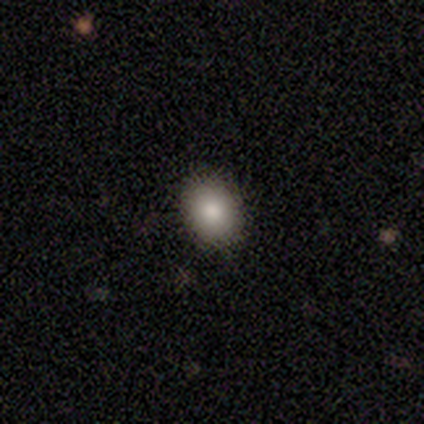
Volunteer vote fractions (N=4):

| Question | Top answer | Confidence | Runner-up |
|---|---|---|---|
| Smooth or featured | smooth | 100% | — |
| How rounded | round | 50% | tied: in between (50%) |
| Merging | none | 100% | — |